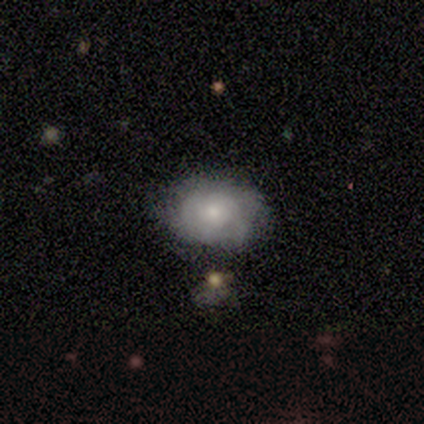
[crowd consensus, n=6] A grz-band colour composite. It shows a smooth galaxy with no disk features (50%, tied with featured or disk) that is in between round and cigar-shaped (100%). Merging: none (50%, tied with minor disturbance).